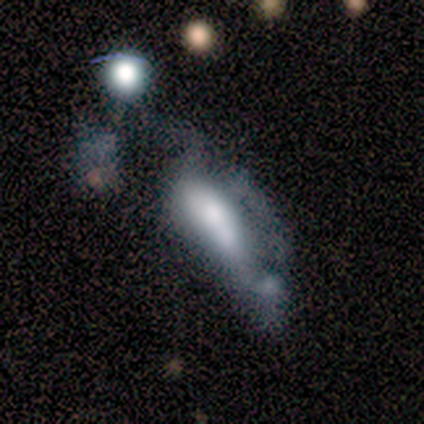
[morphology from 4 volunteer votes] This is possibly a smooth galaxy (50%, tied with featured or disk). How rounded: possibly in between (50%, tied with cigar-shaped). Merging: possibly merger (50%).